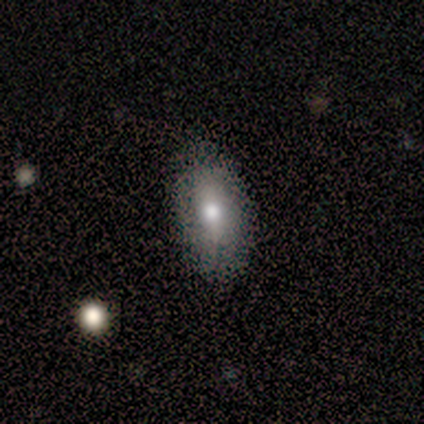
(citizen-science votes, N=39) This is likely a smooth galaxy (62%). How rounded: clearly in between (96%). Merging: clearly none (83%).